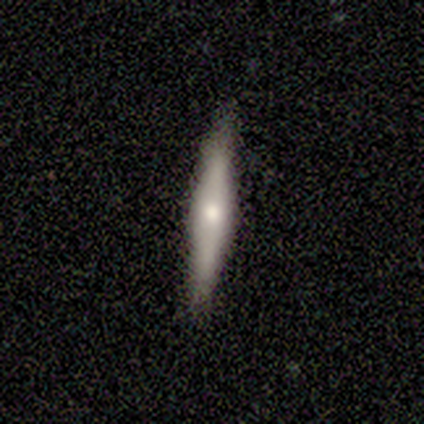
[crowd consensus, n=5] Smooth or featured: featured or disk — 80% (smooth — 20%)
Edge-on disk: yes — 100%
Edge-on bulge: boxy — 50% (tied with rounded — 50%)
Merging: none — 100%